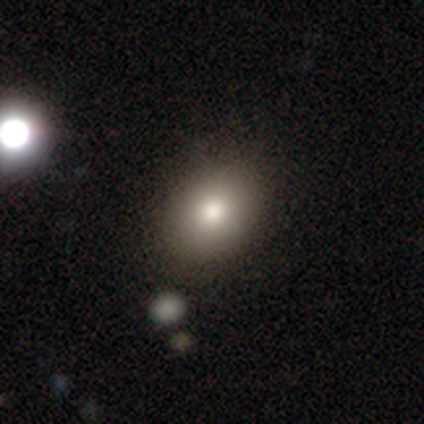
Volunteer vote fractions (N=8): Smooth or featured?
  - smooth: 88% *
  - featured or disk: 12%
  - star or artifact: 0%
How rounded?
  - in between: 71% *
  - round: 29%
  - cigar-shaped: 0%
Merging?
  - none: 62% *
  - minor disturbance: 25%
  - major disturbance: 12%
  - merger: 0%